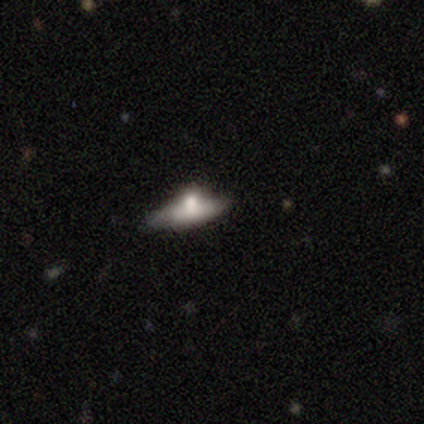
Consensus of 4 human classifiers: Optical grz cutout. It shows a featured or disk galaxy (50%) viewed edge-on (50%, tied with no) with a rounded central bulge (100%). Merging: none (33%, tied with minor disturbance and major disturbance).